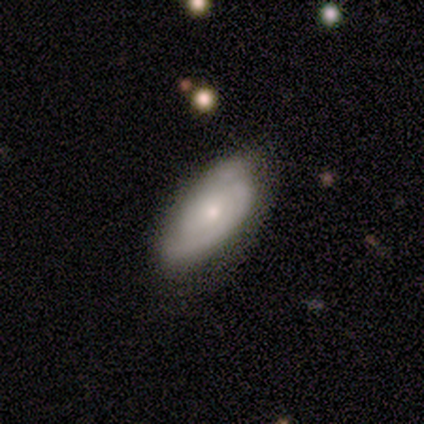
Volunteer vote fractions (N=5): smooth_or_featured: featured or disk (p=0.60) [alt: smooth p=0.40]
disk_edge_on: no (p=1.00)
bar: no (p=1.00)
has_spiral_arms: yes (p=1.00)
spiral_winding: tight (p=0.67) [alt: medium p=0.33]
spiral_arm_count: 2 (p=0.33) [tied with: 3 p=0.33, can't tell p=0.33]
bulge_size: moderate (p=0.67) [alt: small p=0.33]
merging: none (p=1.00)